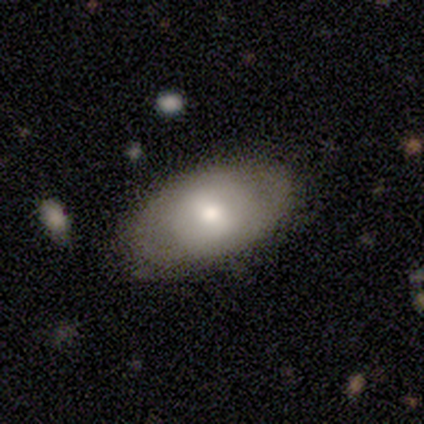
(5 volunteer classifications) A smooth galaxy with no disk features (60%) that is in between round and cigar-shaped (100%).

Vote fractions:
- Smooth or featured? smooth: 60% / featured or disk: 40% / star or artifact: 0%
- How rounded? in between: 100% / round: 0% / cigar-shaped: 0%
- Merging? none: 80% / major disturbance: 20% / minor disturbance: 0% / merger: 0%